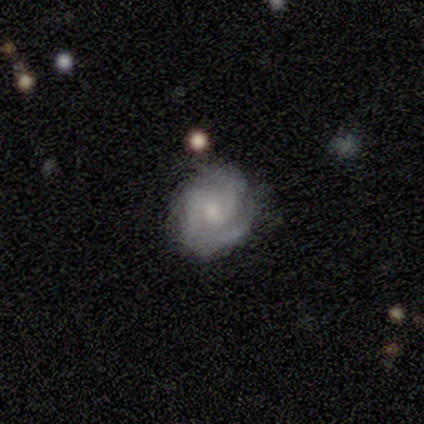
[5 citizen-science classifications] A featured or disk galaxy (80%) with no bar (100%), 2 (50%) tight (50%, tied with medium) spiral arms (100%) and a moderate central bulge (50%).

Vote fractions:
- Smooth or featured? featured or disk: 80% / smooth: 20% / star or artifact: 0%
- Edge-on disk? no: 100% / yes: 0%
- Bar? no: 100% / strong: 0% / weak: 0%
- Spiral arms? yes: 100% / no: 0%
- Spiral winding? tight: 50% (tied) / medium: 50% (tied) / loose: 0%
- Spiral arm count? 2: 50% / 3: 25% / can't tell: 25% / 1: 0% / 4: 0% / more than 4: 0%
- Bulge size? moderate: 50% / small: 25% / none: 25% / dominant: 0% / large: 0%
- Merging? minor disturbance: 80% / none: 20% / major disturbance: 0% / merger: 0%